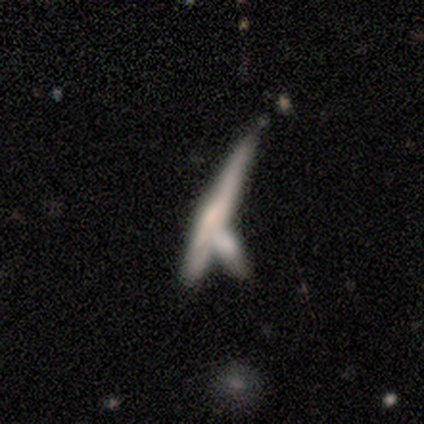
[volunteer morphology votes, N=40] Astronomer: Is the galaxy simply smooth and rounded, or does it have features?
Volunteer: featured or disk — 60%.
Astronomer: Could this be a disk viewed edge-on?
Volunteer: yes — 79%.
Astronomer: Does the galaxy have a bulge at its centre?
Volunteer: rounded — 47% (runner-up: none, 32%).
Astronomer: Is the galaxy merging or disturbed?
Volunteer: merger — 53%.